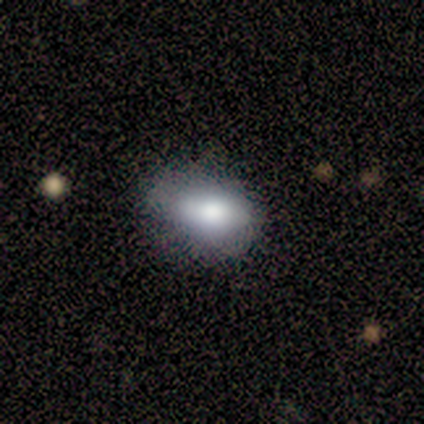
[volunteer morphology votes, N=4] This is clearly a smooth galaxy (100%). How rounded: clearly in between (100%). Merging: possibly none (50%).